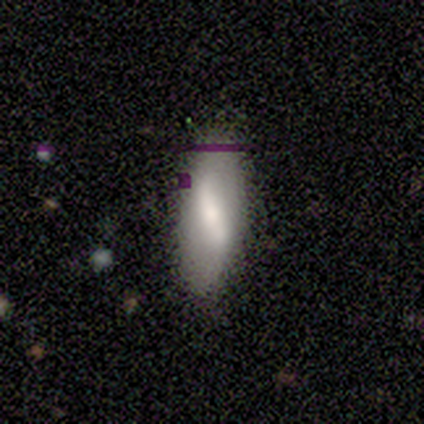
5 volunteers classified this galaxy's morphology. smooth 40% (tied), featured or disk 40% (tied), star or artifact 20%. Down the decision tree: how rounded — in between (50%, tied with cigar-shaped); merging — none (75%).